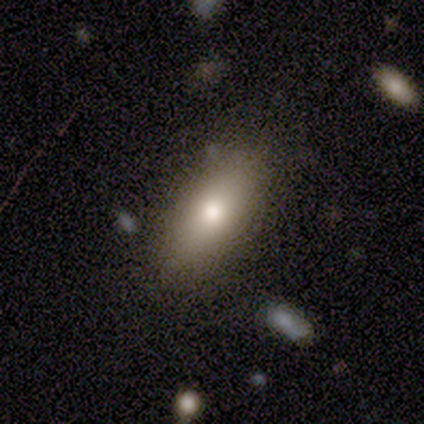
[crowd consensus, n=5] Consensus on every question: smooth or featured — smooth (100%); how rounded — in between (100%); merging — none (100%).